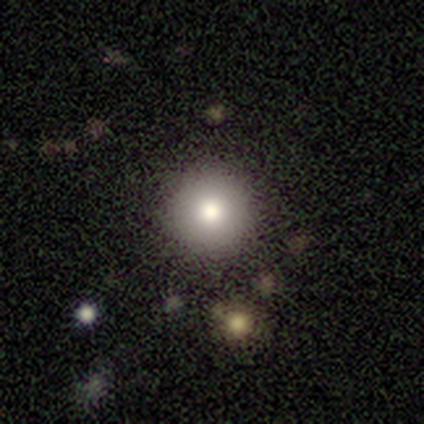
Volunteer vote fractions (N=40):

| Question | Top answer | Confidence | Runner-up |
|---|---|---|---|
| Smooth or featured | smooth | 72% | featured or disk (15%) |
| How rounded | round | 93% | in between (7%) |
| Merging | none | 89% | minor disturbance (6%) |